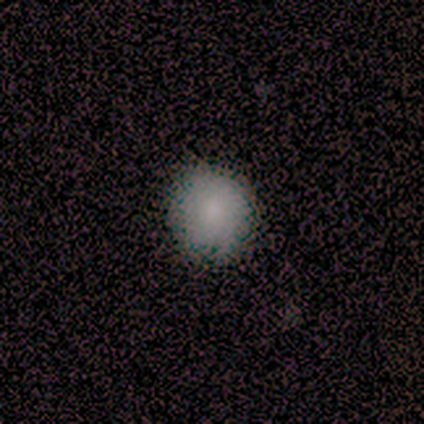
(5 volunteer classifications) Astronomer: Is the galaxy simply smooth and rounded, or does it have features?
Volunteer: smooth — 100%.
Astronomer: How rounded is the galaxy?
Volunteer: round — 100%.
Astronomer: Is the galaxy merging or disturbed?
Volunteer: none — 100%.